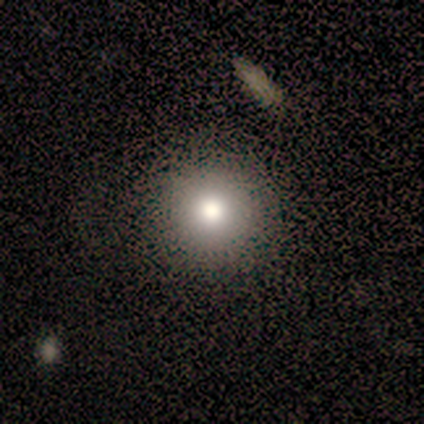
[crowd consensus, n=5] Smooth or featured? smooth (80%)
How rounded? round (100%)
Merging? none (100%)